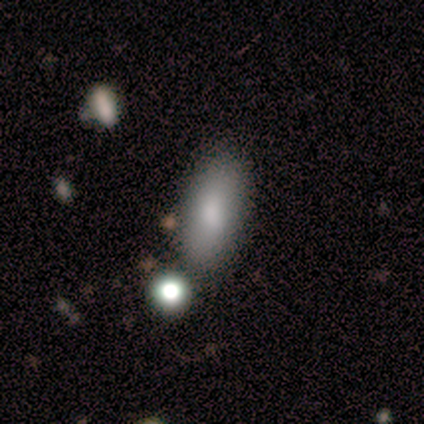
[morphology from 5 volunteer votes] Volunteers were most divided on "merging": none: 80%, major disturbance: 20%, minor disturbance: 0%, merger: 0%. More confident: smooth or featured — smooth (100%); how rounded — in between (100%).